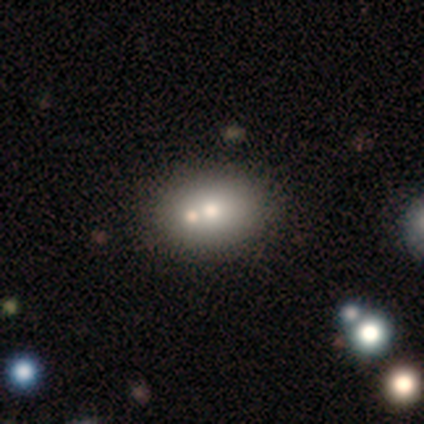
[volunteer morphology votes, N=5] Overall: smooth (80%). How rounded: in between (75%). Merging: merger (40%; none 20%).